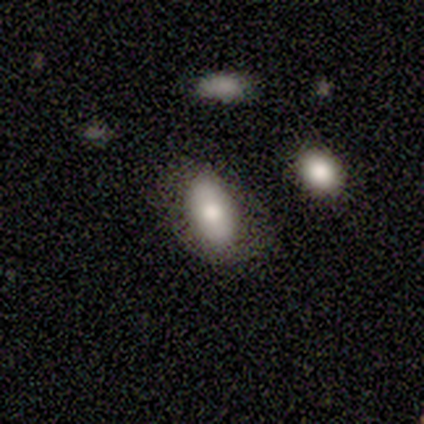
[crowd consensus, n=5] A smooth galaxy with no disk features (100%) that is in between round and cigar-shaped (100%).

Vote fractions:
- Smooth or featured? smooth: 100% / featured or disk: 0% / star or artifact: 0%
- How rounded? in between: 100% / round: 0% / cigar-shaped: 0%
- Merging? none: 80% / minor disturbance: 20% / major disturbance: 0% / merger: 0%